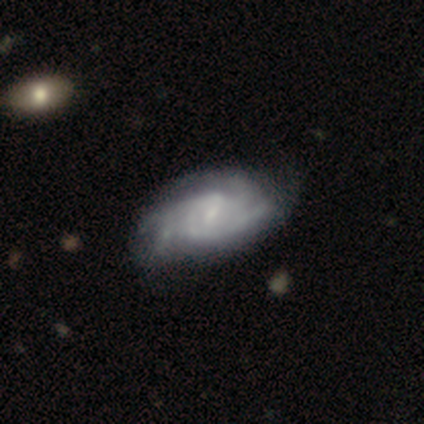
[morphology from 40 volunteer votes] Overall: featured or disk (88%). Edge-on disk: no (100%). Bar: weak (77%). Spiral arms: yes (94%). Spiral arm count: 4 (27%, tied with can't tell). Spiral winding: tight (52%; medium 42%). Bulge size: small (54%; moderate 26%). Merging: none (42%; minor disturbance 26%).